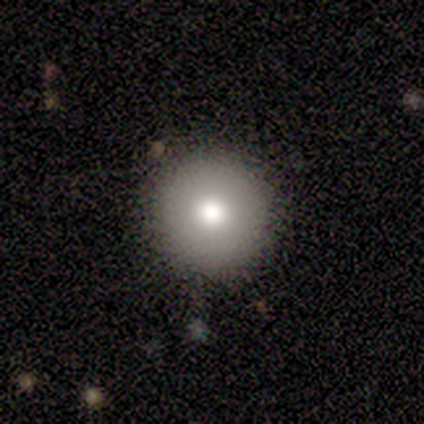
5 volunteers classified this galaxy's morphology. Smooth or featured?
  - smooth: 80% *
  - featured or disk: 20%
  - star or artifact: 0%
How rounded?
  - round: 100% *
  - in between: 0%
  - cigar-shaped: 0%
Merging?
  - none: 80% *
  - minor disturbance: 20%
  - major disturbance: 0%
  - merger: 0%